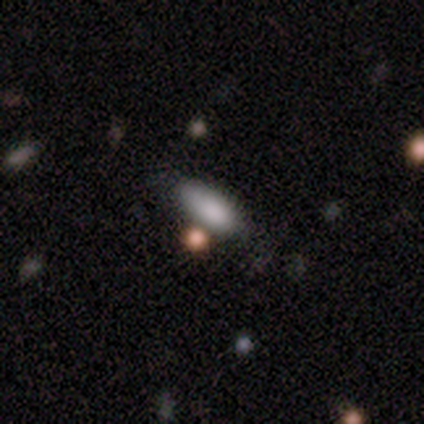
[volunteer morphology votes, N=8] A smooth galaxy with no disk features (100%) that is in between round and cigar-shaped (62%). Merging: none (75%).